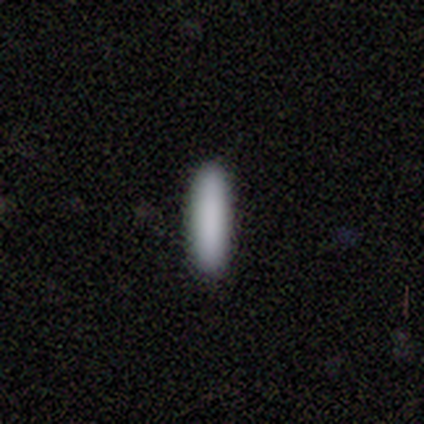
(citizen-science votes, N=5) Volunteers were most divided on "how rounded": cigar-shaped: 80%, in between: 20%, round: 0%. More confident: smooth or featured — smooth (100%); merging — none (100%).